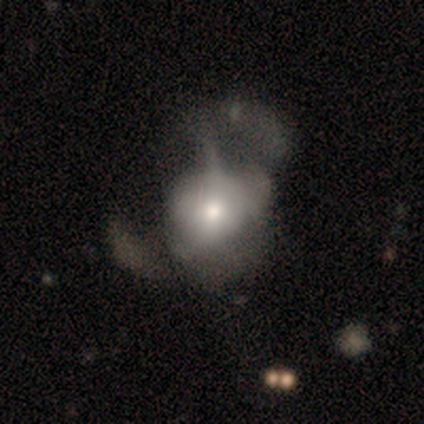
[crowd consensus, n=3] This appears to be a featured or disk galaxy (67%) with no bar (100%), no spiral arms (100%) and a large central bulge (50%, tied with small). Merging: major disturbance (100%).